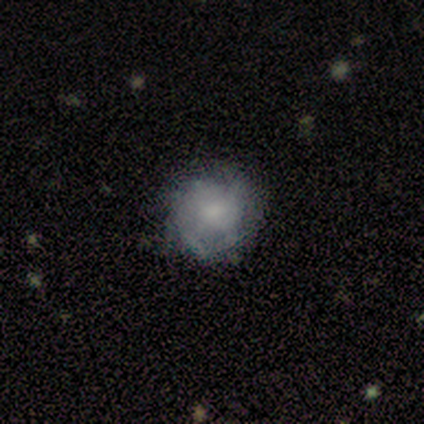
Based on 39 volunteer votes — Smooth or featured? 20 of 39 (51%) said featured or disk. Edge-on disk? 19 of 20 (95%) said no. Bar? 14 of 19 (74%) said no. Spiral arms? 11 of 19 (58%) said yes. Spiral winding? 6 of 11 (55%) said tight. Spiral arm count? 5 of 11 (45%, tied with can't tell) said 2. Bulge size? 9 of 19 (47%) said moderate. Merging? 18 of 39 (46%) said none.